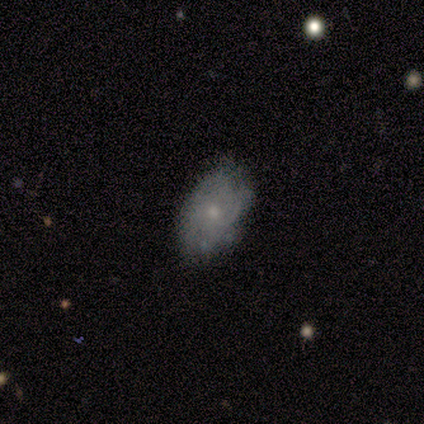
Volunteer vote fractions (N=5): A smooth galaxy with no disk features (60%) that is in between round and cigar-shaped (67%). Merging: none (60%).